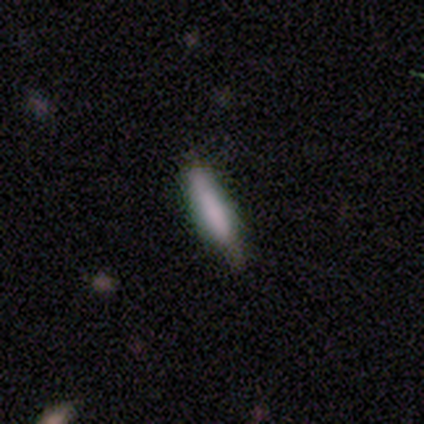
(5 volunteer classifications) Q: Smooth or featured?
A: smooth (80%); runner-up: featured or disk (20%)
Q: How rounded?
A: in between (50%); tied with: cigar-shaped (50%)
Q: Merging?
A: none (60%); runner-up: minor disturbance (40%)